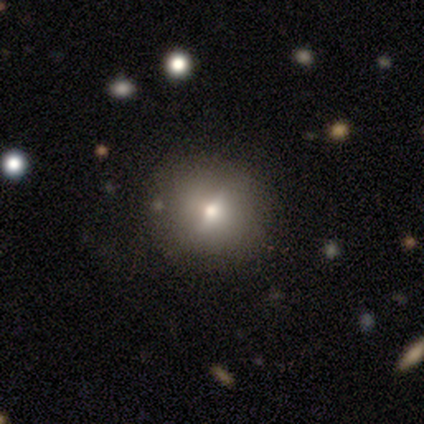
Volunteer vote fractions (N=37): smooth_or_featured: smooth (p=0.51) [alt: featured or disk p=0.24]
how_rounded: round (p=0.84) [alt: in between p=0.16]
merging: none (p=0.89) [alt: minor disturbance p=0.07]